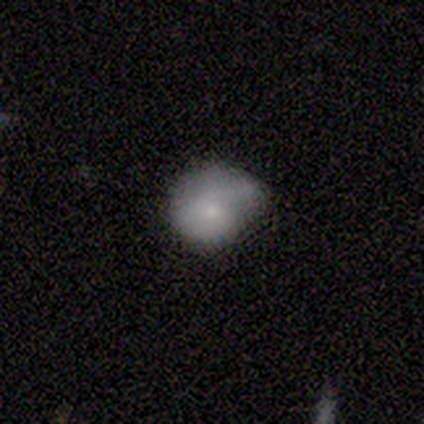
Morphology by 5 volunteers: A smooth galaxy with no disk features (60%) that is in between round and cigar-shaped (100%). Merging: minor disturbance (60%).